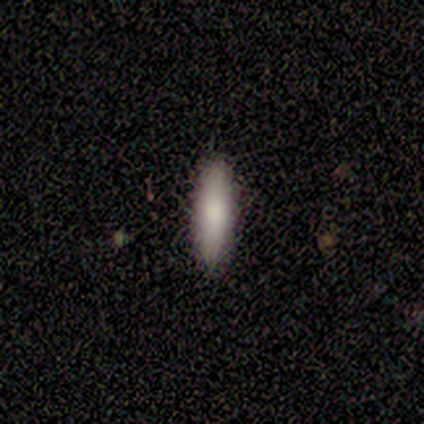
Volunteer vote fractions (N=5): Consensus on every question: smooth or featured — smooth (100%); how rounded — cigar-shaped (100%); merging — none (100%).